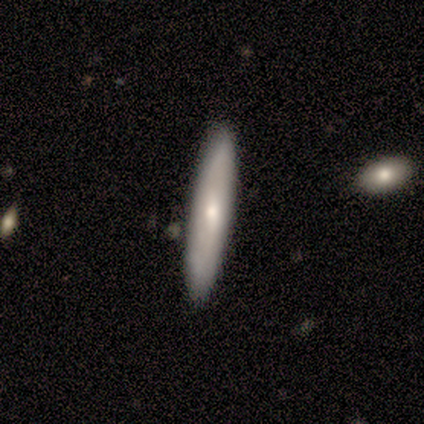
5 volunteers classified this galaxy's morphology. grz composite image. It shows a smooth galaxy with no disk features (60%) that is in between round and cigar-shaped (67%). Merging: none (100%).